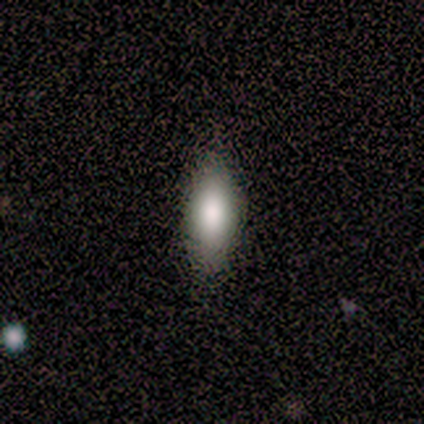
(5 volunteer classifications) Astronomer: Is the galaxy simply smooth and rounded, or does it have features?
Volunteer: smooth — 60%.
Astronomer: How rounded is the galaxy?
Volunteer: in between — 100%.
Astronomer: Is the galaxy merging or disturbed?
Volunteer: none — 75%.